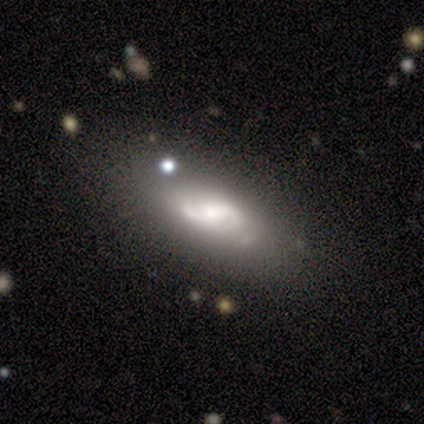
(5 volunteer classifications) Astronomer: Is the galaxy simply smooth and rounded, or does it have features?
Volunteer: featured or disk — 100%.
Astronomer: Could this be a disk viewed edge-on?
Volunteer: no — 100%.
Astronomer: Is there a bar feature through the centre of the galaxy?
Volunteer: weak — 60% (runner-up: no, 40%).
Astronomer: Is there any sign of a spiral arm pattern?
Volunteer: yes — 80%.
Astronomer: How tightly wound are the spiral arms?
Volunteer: medium — 50%.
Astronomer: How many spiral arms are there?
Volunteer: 2 — 100%.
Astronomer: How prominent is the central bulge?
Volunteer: moderate — 40% (runner-up: large, 20%).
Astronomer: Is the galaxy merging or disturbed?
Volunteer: none — 60%.